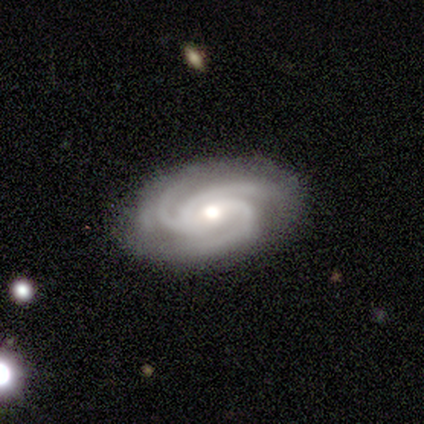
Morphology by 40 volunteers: A featured or disk galaxy (92%) with no bar (49%), 3 (89%) tight (57%) spiral arms (100%) and a moderate central bulge (68%).

Vote fractions:
- Smooth or featured? featured or disk: 92% / star or artifact: 5% / smooth: 2%
- Edge-on disk? no: 100% / yes: 0%
- Bar? no: 49% / weak: 41% / strong: 11%
- Spiral arms? yes: 100% / no: 0%
- Spiral winding? tight: 57% / medium: 35% / loose: 8%
- Spiral arm count? 3: 89% / 2: 3% / 4: 3% / more than 4: 3% / can't tell: 3% / 1: 0%
- Bulge size? moderate: 68% / small: 24% / large: 8% / dominant: 0% / none: 0%
- Merging? none: 89% / minor disturbance: 11% / major disturbance: 0% / merger: 0%